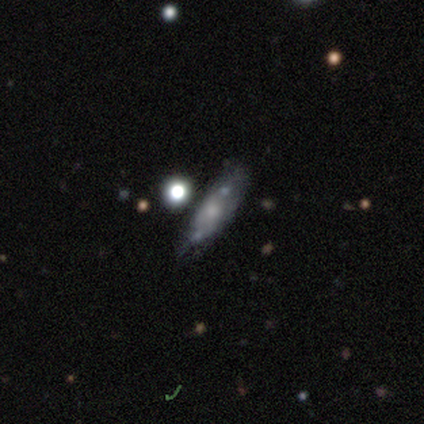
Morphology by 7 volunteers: smooth 57%, featured or disk 43%, star or artifact 0%. Down the decision tree: how rounded — in between (100%); merging — minor disturbance (43%).